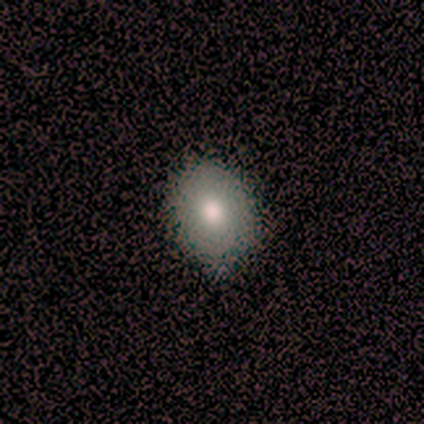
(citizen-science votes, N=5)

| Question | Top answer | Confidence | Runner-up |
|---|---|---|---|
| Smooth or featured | smooth | 60% | featured or disk (40%) |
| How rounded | in between | 67% | round (33%) |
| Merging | none | 60% | minor disturbance (40%) |